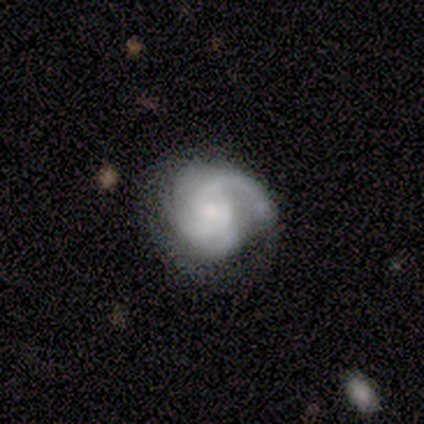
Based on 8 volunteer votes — This is clearly a featured or disk galaxy (100%). It is clearly not viewed edge-on (88%). Bar: possibly weak (57%). Spiral arm pattern: clearly yes (100%). Spiral arm count: marginally 2 (43%). Spiral winding: likely medium (71%). Central bulge: likely small (71%). Merging: likely none (62%).